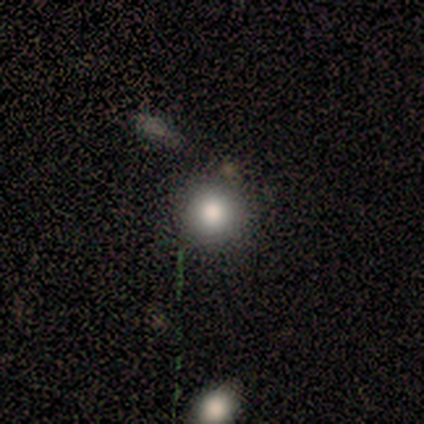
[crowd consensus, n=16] Smooth or featured: smooth — 88% (featured or disk — 6%)
How rounded: round — 100%
Merging: none — 93% (minor disturbance — 7%)